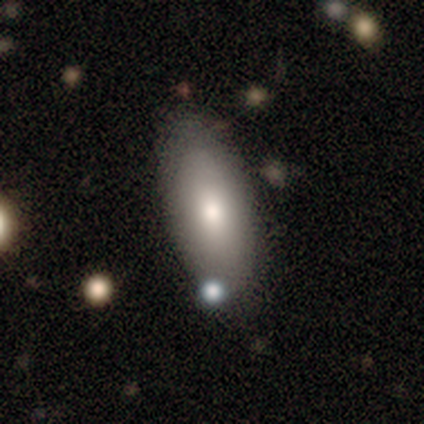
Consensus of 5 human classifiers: Smooth or featured? smooth (100%)
How rounded? in between (100%)
Merging? none (80%)